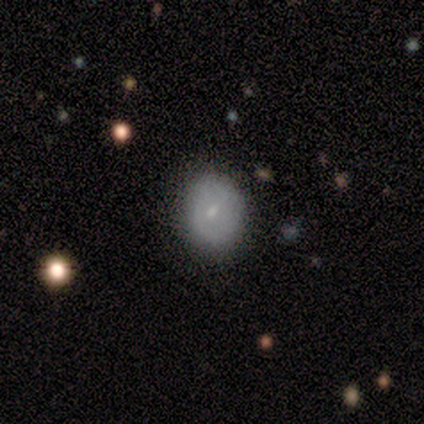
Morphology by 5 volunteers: A smooth galaxy with no disk features (80%) that is round (50%, tied with in between). Merging: none (100%).